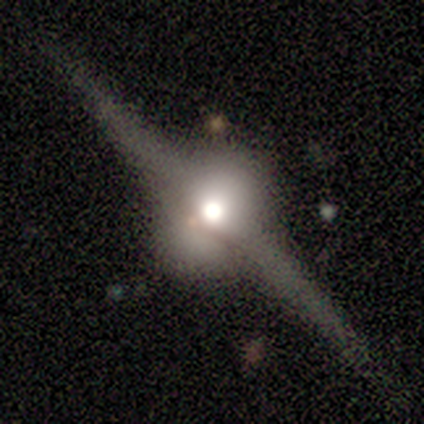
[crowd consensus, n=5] Smooth or featured: featured or disk — 100%
Edge-on disk: yes — 100%
Edge-on bulge: rounded — 100%
Merging: none — 100%